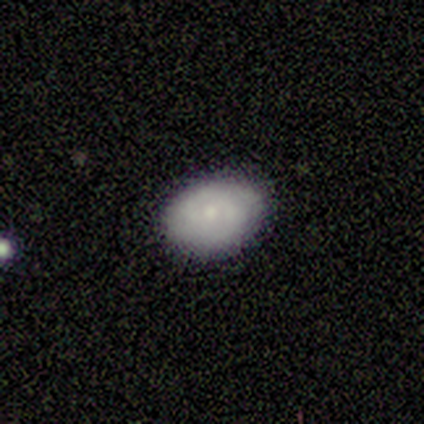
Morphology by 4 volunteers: Smooth or featured? smooth (50%, tied with featured or disk)
How rounded? round (50%, tied with in between)
Merging? none (100%)